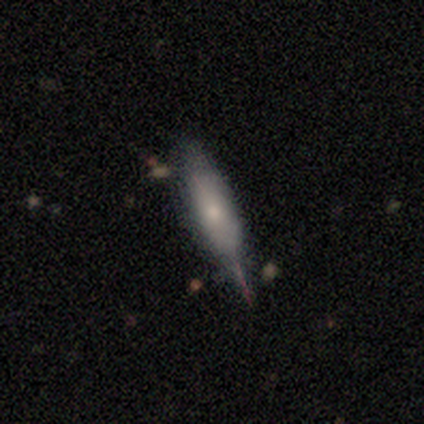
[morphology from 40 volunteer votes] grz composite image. It shows a featured or disk galaxy (52%) viewed edge-on (67%) with a rounded central bulge (64%). Merging: none (49%).